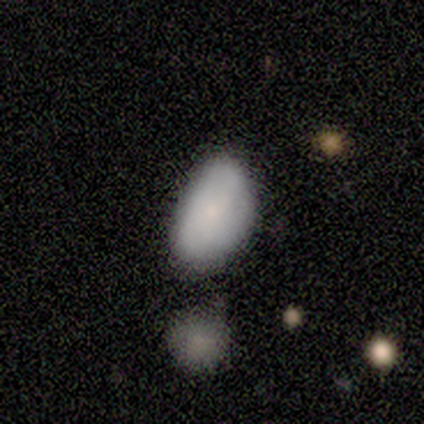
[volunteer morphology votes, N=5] Smooth or featured? smooth (100%)
How rounded? in between (100%)
Merging? none (60%)